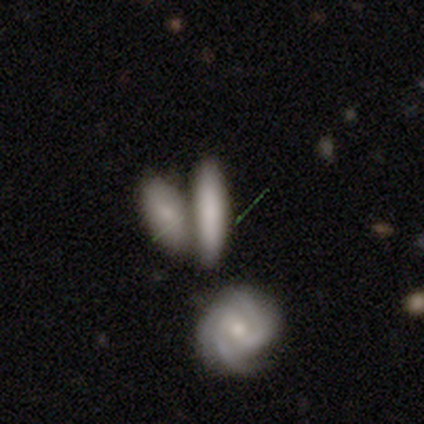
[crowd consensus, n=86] smooth 63%, featured or disk 29%, star or artifact 8%. Down the decision tree: how rounded — cigar-shaped (65%); merging — merger (49%).